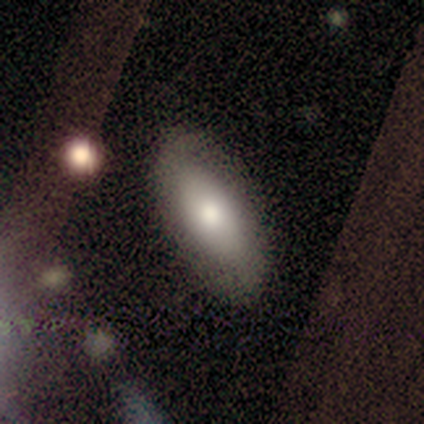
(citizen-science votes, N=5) Volunteers were most divided on "merging": none: 60%, minor disturbance: 40%, major disturbance: 0%, merger: 0%. More confident: smooth or featured — smooth (80%); how rounded — in between (50%).